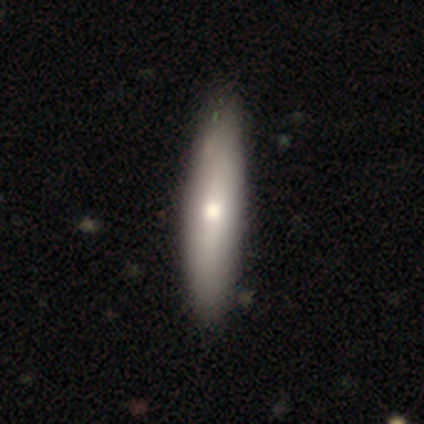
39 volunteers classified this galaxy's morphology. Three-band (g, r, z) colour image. It shows a smooth galaxy with no disk features (77%) that is cigar-shaped (57%). Merging: none (63%).